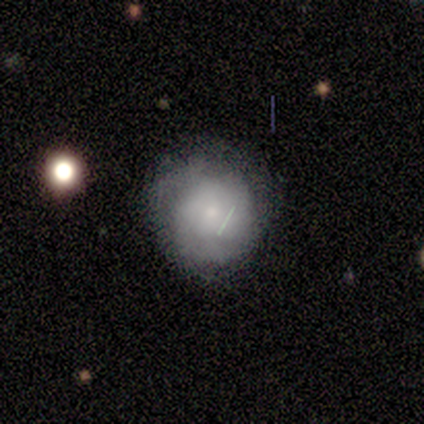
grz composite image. It shows a featured or disk galaxy (75%) with no bar (100%), tight (100%) spiral arms (67%) and a small central bulge (100%). Merging: none (67%).